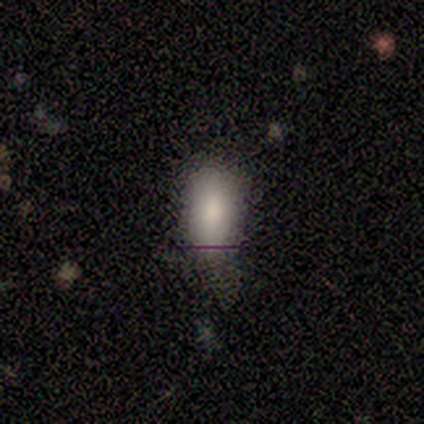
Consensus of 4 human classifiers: Volunteers were most divided on "merging": none: 50%, minor disturbance: 25%, major disturbance: 25%, merger: 0%. More confident: smooth or featured — smooth (100%); how rounded — in between (100%).